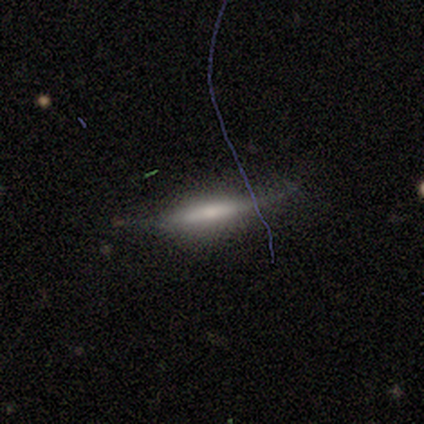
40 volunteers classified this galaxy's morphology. Smooth or featured: featured or disk — 55% (smooth — 40%)
Edge-on disk: yes — 73% (no — 27%)
Edge-on bulge: rounded — 50% (none — 31%)
Merging: none — 53% (minor disturbance — 34%)